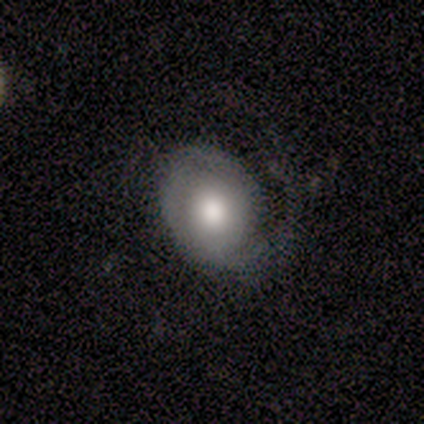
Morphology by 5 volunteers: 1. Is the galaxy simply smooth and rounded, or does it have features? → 80% featured or disk, 20% smooth, 0% star or artifact.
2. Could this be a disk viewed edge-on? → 100% no, 0% yes.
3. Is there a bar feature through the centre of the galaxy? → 100% no, 0% strong, 0% weak.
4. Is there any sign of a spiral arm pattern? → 100% yes, 0% no.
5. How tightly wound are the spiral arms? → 50% medium, 25% tight, 25% loose.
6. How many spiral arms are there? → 100% 1, 0% 2, 0% 3, 0% 4, 0% more than 4, 0% can't tell.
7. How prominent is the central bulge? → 50% dominant (tied), 50% moderate (tied), 0% large, 0% small, 0% none.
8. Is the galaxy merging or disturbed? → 40% none (tied), 40% major disturbance (tied), 20% minor disturbance, 0% merger.